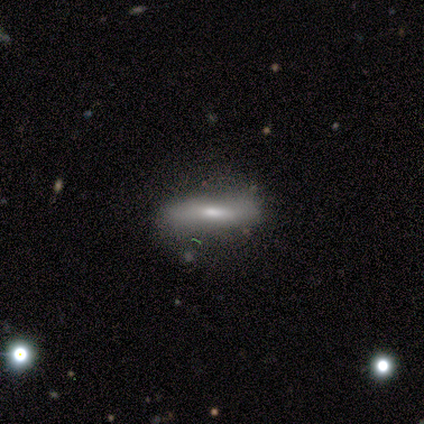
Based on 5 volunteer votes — Morphology: type=featured or disk (80%); edge-on=yes (50%, tied with no); edge-on bulge=boxy (50%, tied with rounded); merging=none (60%).